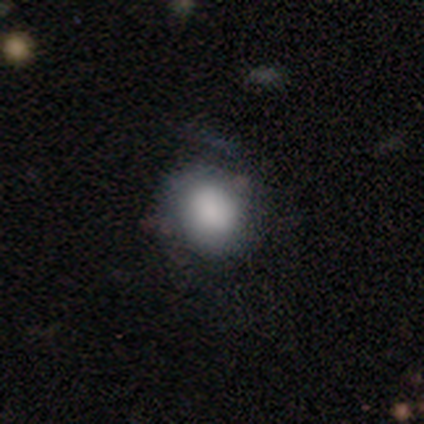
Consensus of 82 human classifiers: smooth 73%, featured or disk 22%, star or artifact 5%. Down the decision tree: how rounded — round (75%); merging — none (60%).